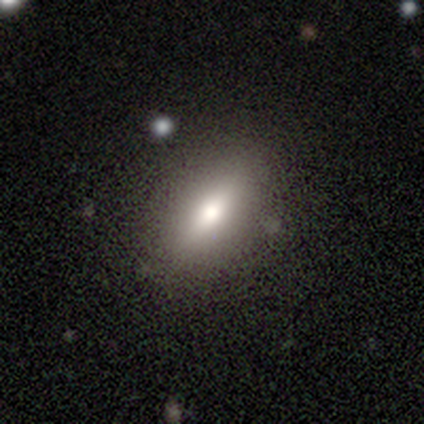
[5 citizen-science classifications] A smooth galaxy with no disk features (80%) that is in between round and cigar-shaped (75%).

Vote fractions:
- Smooth or featured? smooth: 80% / featured or disk: 20% / star or artifact: 0%
- How rounded? in between: 75% / cigar-shaped: 25% / round: 0%
- Merging? none: 80% / minor disturbance: 20% / major disturbance: 0% / merger: 0%